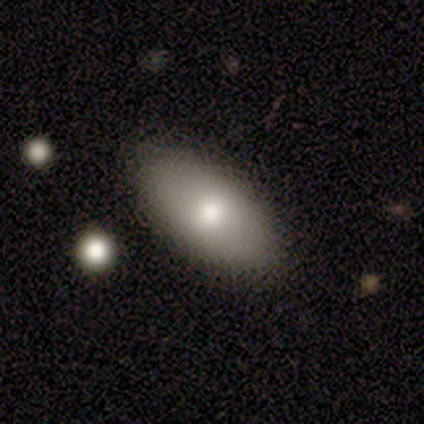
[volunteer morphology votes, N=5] A smooth galaxy with no disk features (80%) that is in between round and cigar-shaped (100%).

Vote fractions:
- Smooth or featured? smooth: 80% / featured or disk: 20% / star or artifact: 0%
- How rounded? in between: 100% / round: 0% / cigar-shaped: 0%
- Merging? none: 100% / minor disturbance: 0% / major disturbance: 0% / merger: 0%